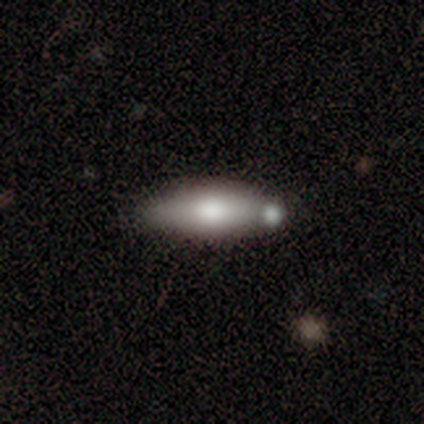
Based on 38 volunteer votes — smooth 68%, featured or disk 26%, star or artifact 5%. Down the decision tree: how rounded — in between (77%); merging — none (58%).